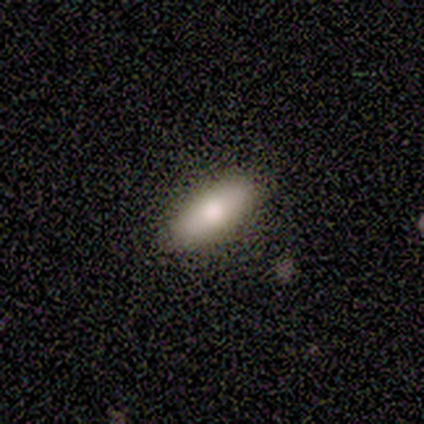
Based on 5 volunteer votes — Morphology: type=smooth (80%); roundness=in between (50%, tied with cigar-shaped); merging=none (80%).